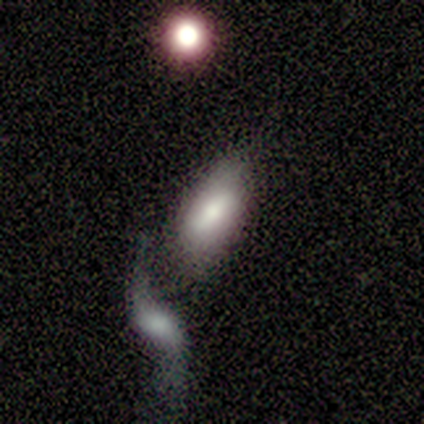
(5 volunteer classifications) Smooth or featured? smooth (100%)
How rounded? in between (60%)
Merging? none (60%)